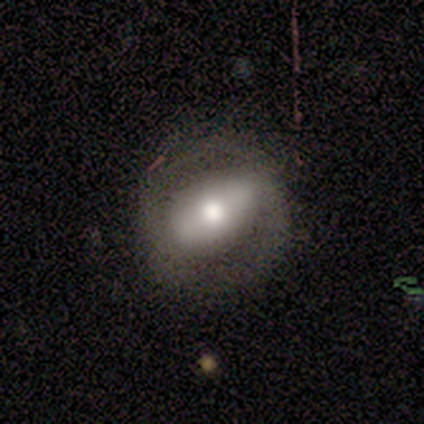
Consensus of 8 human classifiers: Overall: featured or disk (62%; smooth 38%). Edge-on disk: no (60%; yes 40%). Bar: strong (67%; no 33%). Spiral arms: no (67%; yes 33%). Bulge size: moderate (100%). Merging: none (62%; minor disturbance 25%).